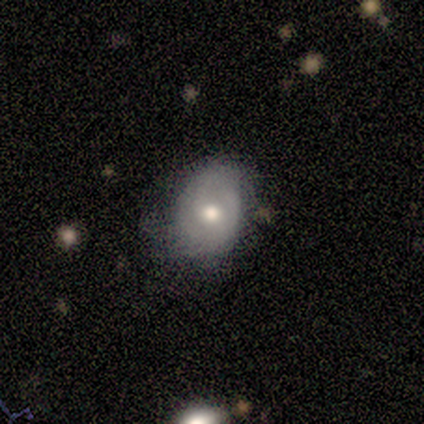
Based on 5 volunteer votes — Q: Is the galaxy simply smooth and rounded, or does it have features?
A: smooth — 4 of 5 (80%).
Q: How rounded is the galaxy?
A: round — 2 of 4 (50%, tied with in between).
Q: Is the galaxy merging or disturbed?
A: none — 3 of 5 (60%).